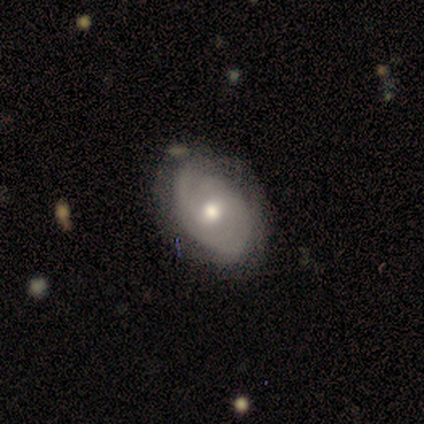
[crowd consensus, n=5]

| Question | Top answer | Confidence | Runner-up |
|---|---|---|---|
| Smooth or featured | featured or disk | 80% | smooth (20%) |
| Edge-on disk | no | 100% | — |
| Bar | no | 50% | strong (25%) |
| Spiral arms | yes | 50% | tied: no (50%) |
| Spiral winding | tight | 100% | — |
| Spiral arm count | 2 | 50% | tied: can't tell (50%) |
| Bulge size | moderate | 75% | small (25%) |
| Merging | none | 60% | major disturbance (40%) |